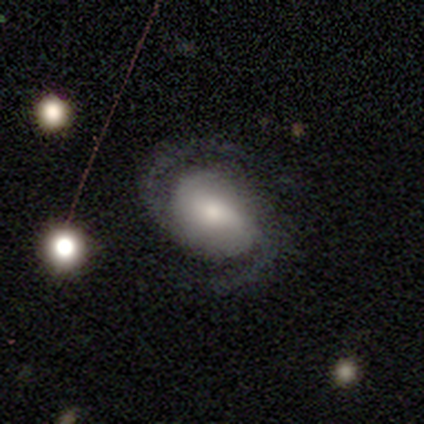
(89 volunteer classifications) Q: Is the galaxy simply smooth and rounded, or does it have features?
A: featured or disk — 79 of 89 (89%).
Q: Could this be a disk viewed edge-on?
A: no — 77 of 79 (97%).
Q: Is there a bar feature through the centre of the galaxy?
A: no — 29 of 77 (38%).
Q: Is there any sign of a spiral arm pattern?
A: yes — 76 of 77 (99%).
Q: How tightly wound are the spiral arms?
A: medium — 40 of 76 (53%).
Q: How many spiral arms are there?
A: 2 — 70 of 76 (92%).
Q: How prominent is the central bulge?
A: moderate — 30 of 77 (39%).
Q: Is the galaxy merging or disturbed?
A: none — 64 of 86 (74%).